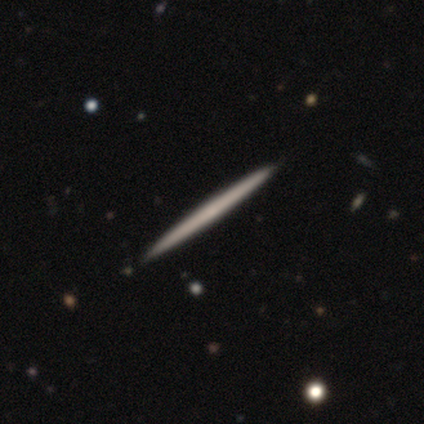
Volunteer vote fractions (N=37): Smooth or featured? featured or disk (68%)
Edge-on disk? yes (100%)
Edge-on bulge? none (88%)
Merging? none (72%)